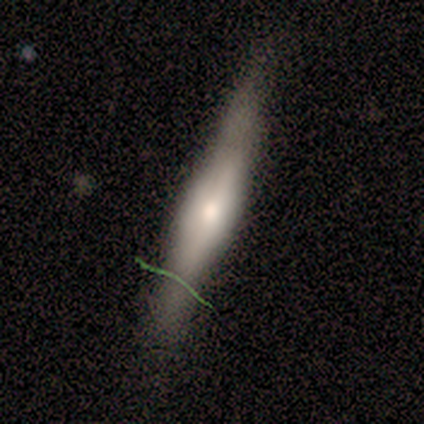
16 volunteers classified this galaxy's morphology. Volunteers were most divided on "merging": none: 73%, minor disturbance: 20%, major disturbance: 7%, merger: 0%. More confident: edge-on disk — yes (100%); edge-on bulge — rounded (93%); smooth or featured — featured or disk (88%).